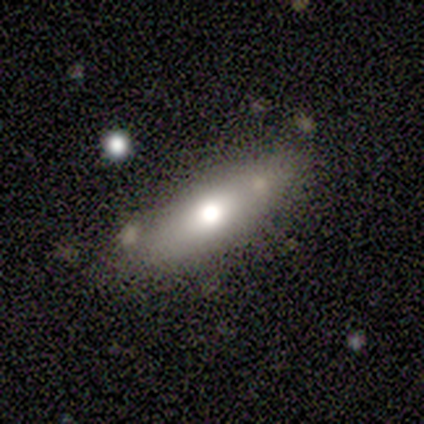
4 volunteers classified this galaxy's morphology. Volunteers were most divided on "smooth or featured": smooth: 75%, featured or disk: 25%, star or artifact: 0%. More confident: how rounded — in between (100%); merging — none (75%).